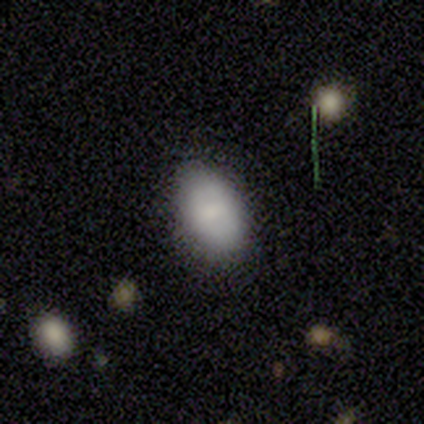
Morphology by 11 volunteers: Smooth or featured? smooth (82%)
How rounded? in between (100%)
Merging? none (80%)